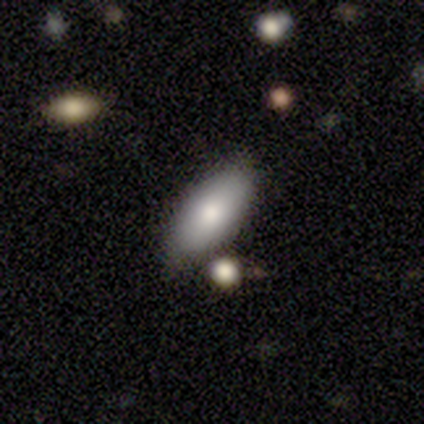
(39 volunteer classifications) smooth-or-featured: smooth: 85% | featured or disk: 15% | star or artifact: 0%
  how-rounded: in between: 91% | cigar-shaped: 9% | round: 0%
  merging: none: 79% | minor disturbance: 15% | major disturbance: 3% | merger: 3%